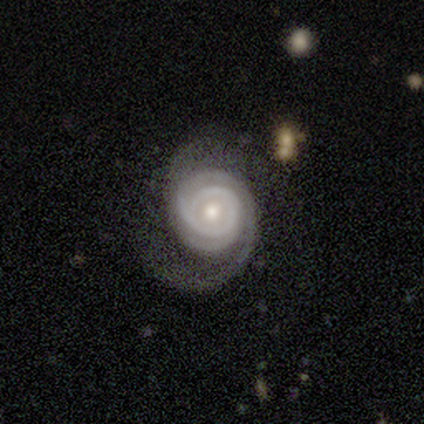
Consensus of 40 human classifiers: A featured or disk galaxy (88%) with no bar (76%), 2 (64%) tight (61%) spiral arms (97%) and a moderate central bulge (65%). Merging: none (59%).